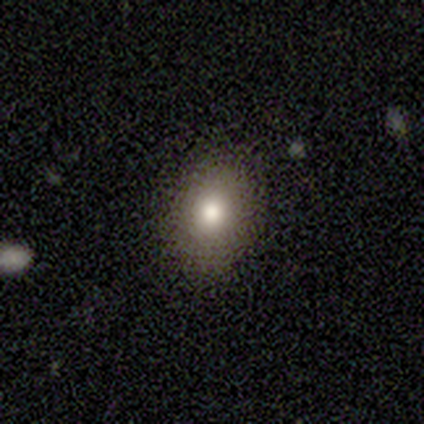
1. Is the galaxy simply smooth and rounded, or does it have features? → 69% smooth, 21% featured or disk, 10% star or artifact.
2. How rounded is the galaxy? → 63% in between, 37% round, 0% cigar-shaped.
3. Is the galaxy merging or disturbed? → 80% none, 17% minor disturbance, 3% major disturbance, 0% merger.